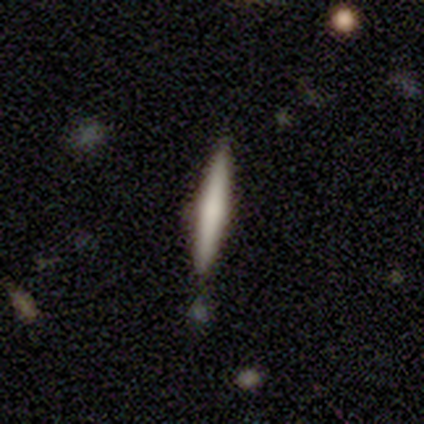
This is possibly a smooth galaxy (50%, tied with featured or disk). How rounded: clearly cigar-shaped (100%). Merging: clearly none (100%).